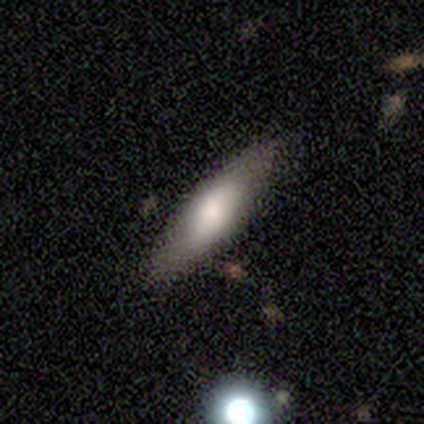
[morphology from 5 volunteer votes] Overall: smooth (80%). How rounded: in between (50%, tied with cigar-shaped). Merging: none (80%).